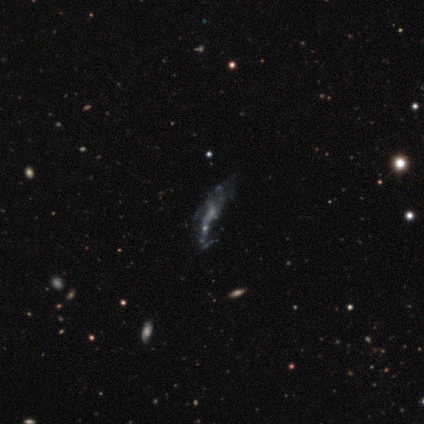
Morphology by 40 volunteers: featured or disk 55%, star or artifact 28%, smooth 18%. Down the decision tree: edge-on disk — no (82%); bar — no (83%); spiral arms — no (61%); bulge size — none (67%); merging — none (48%).